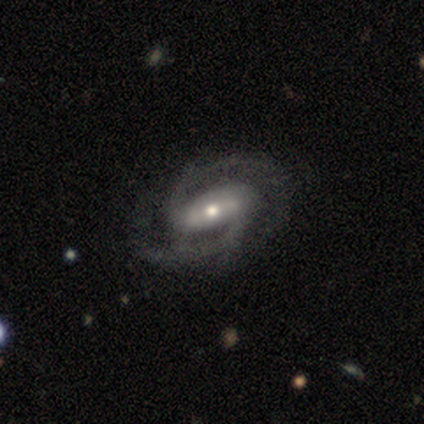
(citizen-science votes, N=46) A featured or disk galaxy (91%) with a strong bar (55%), 2 (90%) medium (50%) spiral arms (100%) and a moderate central bulge (70%).

Vote fractions:
- Smooth or featured? featured or disk: 91% / star or artifact: 7% / smooth: 2%
- Edge-on disk? no: 95% / yes: 5%
- Bar? strong: 55% / weak: 28% / no: 18%
- Spiral arms? yes: 100% / no: 0%
- Spiral winding? medium: 50% / tight: 45% / loose: 5%
- Spiral arm count? 2: 90% / 4: 5% / can't tell: 5% / 1: 0% / 3: 0% / more than 4: 0%
- Bulge size? moderate: 70% / small: 25% / large: 5% / dominant: 0% / none: 0%
- Merging? none: 63% / minor disturbance: 28% / major disturbance: 9% / merger: 0%